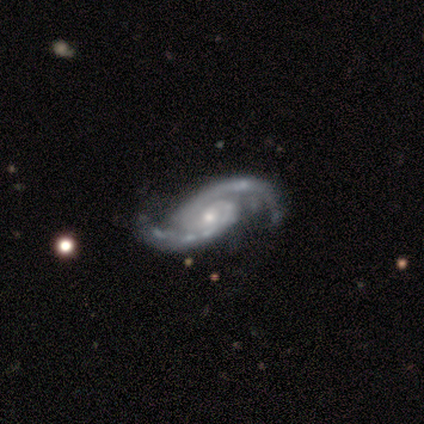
smooth-or-featured: featured or disk: 100% | smooth: 0% | star or artifact: 0%
  disk-edge-on: no: 100% | yes: 0%
    bar: no: 60% | weak: 40% | strong: 0%
    has-spiral-arms: yes: 100% | no: 0%
      spiral-winding: medium: 100% | tight: 0% | loose: 0%
      spiral-arm-count: 2: 100% | 1: 0% | 3: 0% | 4: 0% | more than 4: 0% | can't tell: 0%
    bulge-size: moderate: 60% | small: 40% | dominant: 0% | large: 0% | none: 0%
  merging: none: 80% | minor disturbance: 20% | major disturbance: 0% | merger: 0%